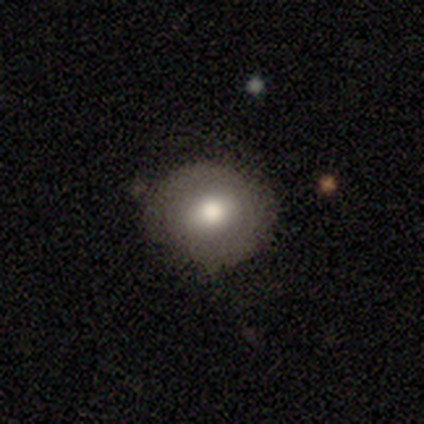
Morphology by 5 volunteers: type=smooth (60%); roundness=in between (67%); merging=none (60%).